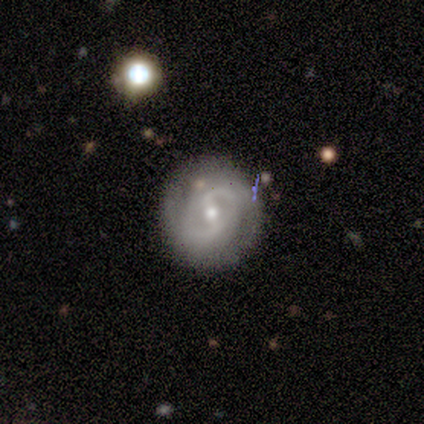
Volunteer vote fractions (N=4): Smooth or featured?
  - featured or disk: 75% *
  - smooth: 25%
  - star or artifact: 0%
Edge-on disk?
  - no: 100% *
  - yes: 0%
Bar?
  - strong: 33% * (tied)
  - weak: 33% * (tied)
  - no: 33% * (tied)
Spiral arms?
  - yes: 67% *
  - no: 33%
Spiral winding?
  - medium: 100% *
  - tight: 0%
  - loose: 0%
Spiral arm count?
  - 2: 50% * (tied)
  - can't tell: 50% * (tied)
  - 1: 0%
  - 3: 0%
  - 4: 0%
  - more than 4: 0%
Bulge size?
  - small: 67% *
  - moderate: 33%
  - dominant: 0%
  - large: 0%
  - none: 0%
Merging?
  - none: 100% *
  - minor disturbance: 0%
  - major disturbance: 0%
  - merger: 0%